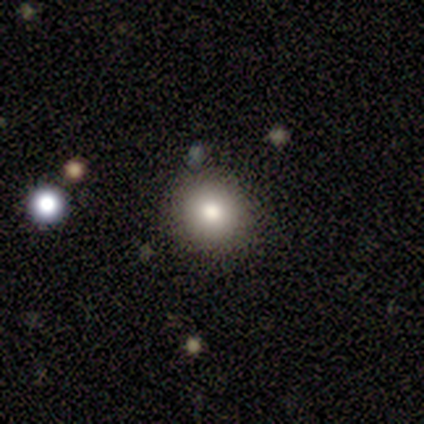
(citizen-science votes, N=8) Smooth or featured? 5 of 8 (62%) said smooth. How rounded? 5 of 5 (100%) said round. Merging? 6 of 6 (100%) said none.